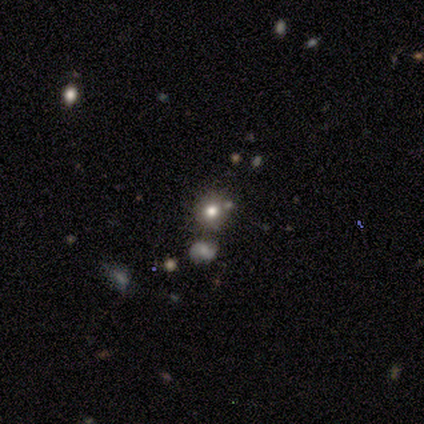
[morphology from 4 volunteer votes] A smooth galaxy with no disk features (75%) that is in between round and cigar-shaped (67%).

Vote fractions:
- Smooth or featured? smooth: 75% / featured or disk: 25% / star or artifact: 0%
- How rounded? in between: 67% / round: 33% / cigar-shaped: 0%
- Merging? none: 100% / minor disturbance: 0% / major disturbance: 0% / merger: 0%